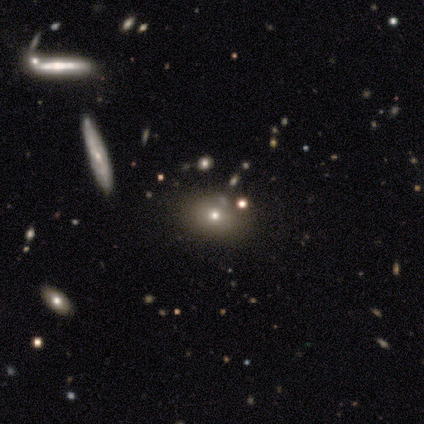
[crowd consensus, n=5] Overall: smooth (40%, tied with star or artifact). How rounded: round (50%, tied with cigar-shaped). Merging: none (67%; minor disturbance 33%).